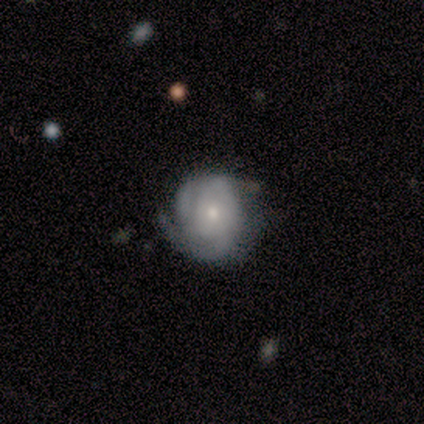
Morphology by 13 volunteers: Smooth or featured? 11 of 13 (85%) said featured or disk. Edge-on disk? 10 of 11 (91%) said no. Bar? 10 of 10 (100%) said no. Spiral arms? 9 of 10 (90%) said yes. Spiral winding? 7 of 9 (78%) said tight. Spiral arm count? 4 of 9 (44%) said 3. Bulge size? 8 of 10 (80%) said small. Merging? 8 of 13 (62%) said none.